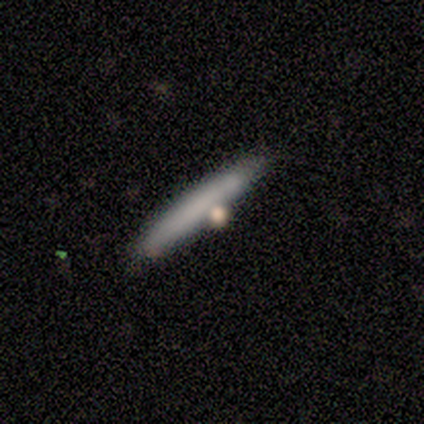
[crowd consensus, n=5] smooth 80%, star or artifact 20%, featured or disk 0%. Down the decision tree: how rounded — cigar-shaped (100%); merging — none (75%).